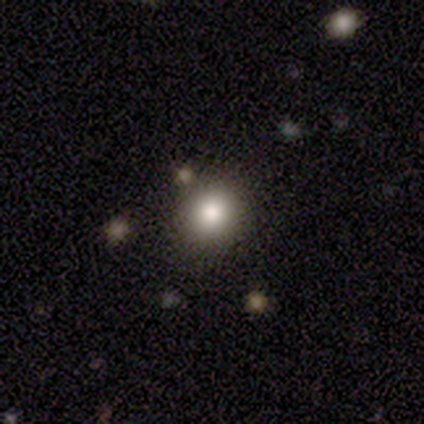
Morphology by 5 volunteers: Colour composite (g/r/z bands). It shows a smooth galaxy with no disk features (80%) that is round (75%). Merging: none (80%).